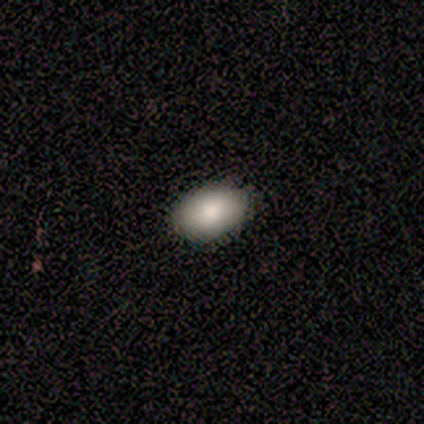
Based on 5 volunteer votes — Overall: smooth (60%; featured or disk 40%). How rounded: in between (100%). Merging: none (80%).